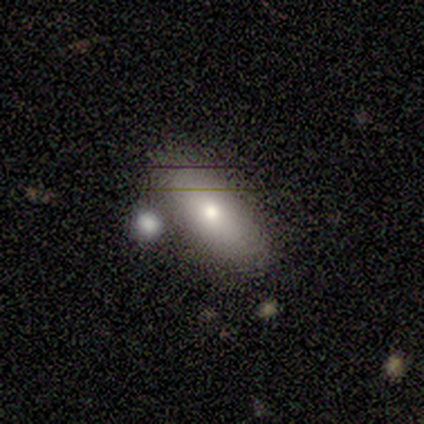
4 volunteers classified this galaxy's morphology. Overall: smooth (100%). How rounded: in between (100%). Merging: none (75%).